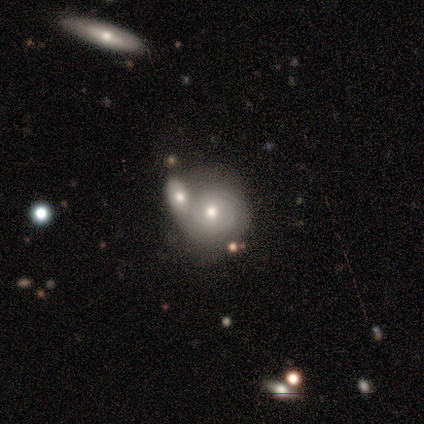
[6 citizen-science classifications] Volunteers were most divided on "merging": merger: 50%, none: 33%, minor disturbance: 17%, major disturbance: 0%. More confident: edge-on disk — no (100%); bar — no (100%); smooth or featured — featured or disk (83%); spiral arms — yes (80%); spiral arm count — can't tell (75%); bulge size — moderate (60%); spiral winding — tight (50%).